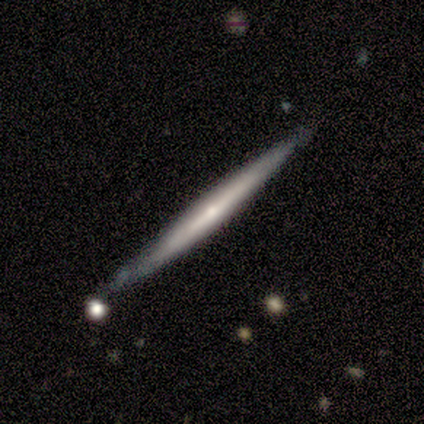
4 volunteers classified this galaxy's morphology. Smooth or featured: smooth — 50% (tied with featured or disk — 50%)
How rounded: cigar-shaped — 100%
Merging: none — 100%